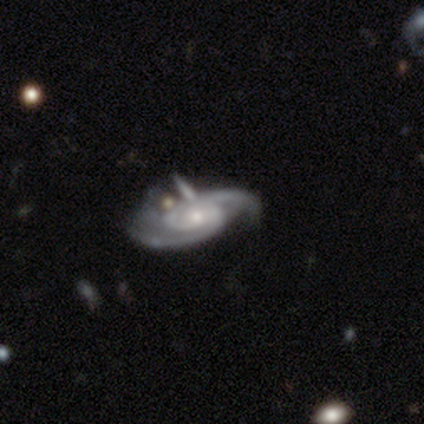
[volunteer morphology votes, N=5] A featured or disk galaxy (100%) with a weak bar (60%), 2 (100%) medium (80%) spiral arms (100%) and a small central bulge (40%). Merging: none (40%, tied with merger).